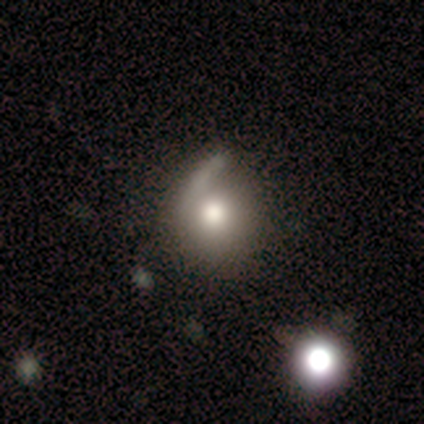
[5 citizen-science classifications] Morphology: type=smooth (80%); roundness=round (100%); merging=none (60%).